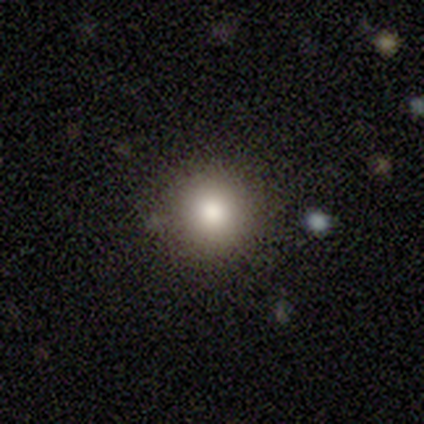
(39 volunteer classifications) Volunteers were most divided on "smooth or featured": smooth: 72%, featured or disk: 15%, star or artifact: 13%. More confident: how rounded — round (100%); merging — none (91%).